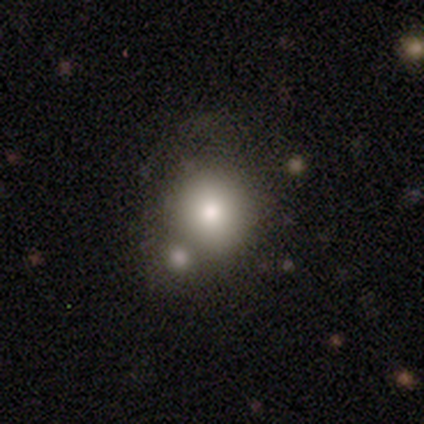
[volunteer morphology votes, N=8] Q: Smooth or featured?
A: smooth (100%)
Q: How rounded?
A: round (100%)
Q: Merging?
A: merger (50%); runner-up: none (25%)